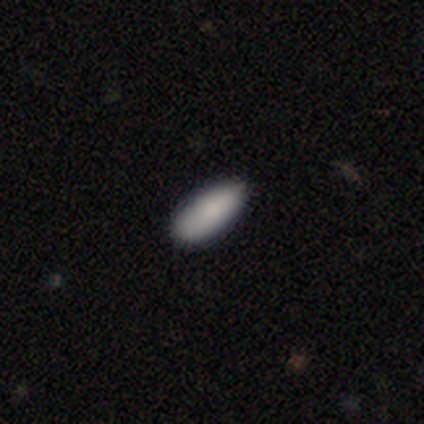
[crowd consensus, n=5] smooth-or-featured: smooth: 60% | featured or disk: 40% | star or artifact: 0%
  how-rounded: in between: 100% | round: 0% | cigar-shaped: 0%
  merging: none: 60% | minor disturbance: 40% | major disturbance: 0% | merger: 0%